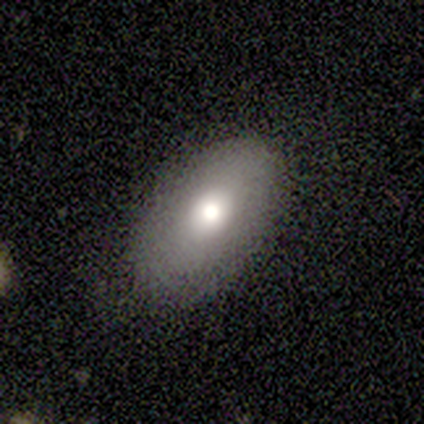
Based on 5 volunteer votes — Morphology: type=smooth (60%); roundness=in between (100%); merging=none (80%).